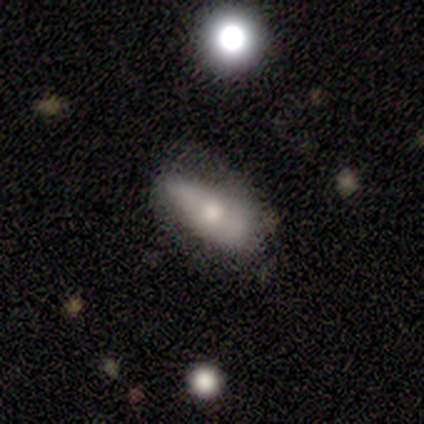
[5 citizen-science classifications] smooth_or_featured: smooth (p=0.60) [alt: star or artifact p=0.40]
how_rounded: in between (p=1.00)
merging: none (p=0.67) [alt: minor disturbance p=0.33]